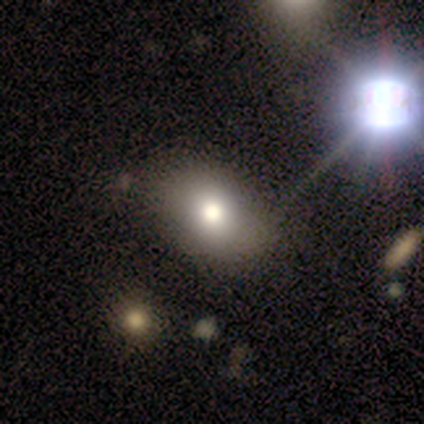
A smooth galaxy with no disk features (62%) that is in between round and cigar-shaped (75%). Merging: none (89%).